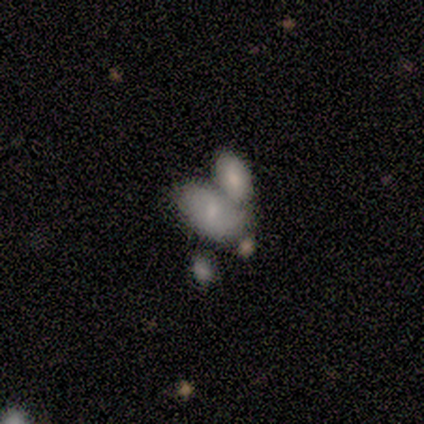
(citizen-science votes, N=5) A featured or disk galaxy (60%) with a strong bar (33%, tied with weak and no), no spiral arms (100%) and a small central bulge (67%). Merging: none (80%).